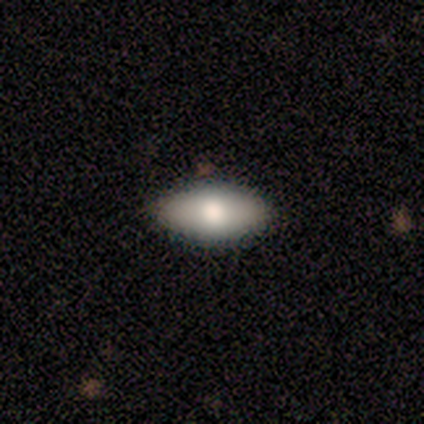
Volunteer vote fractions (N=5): Overall: smooth (60%; featured or disk 20%). How rounded: in between (100%). Merging: none (100%).